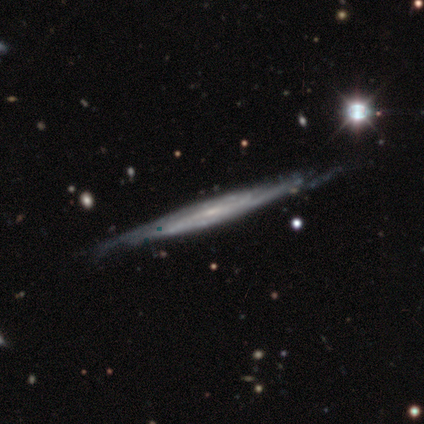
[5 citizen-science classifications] Smooth or featured? 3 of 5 (60%) said featured or disk. Edge-on disk? 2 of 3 (67%) said yes. Edge-on bulge? 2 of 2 (100%) said rounded. Merging? 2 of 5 (40%, tied with minor disturbance) said none.